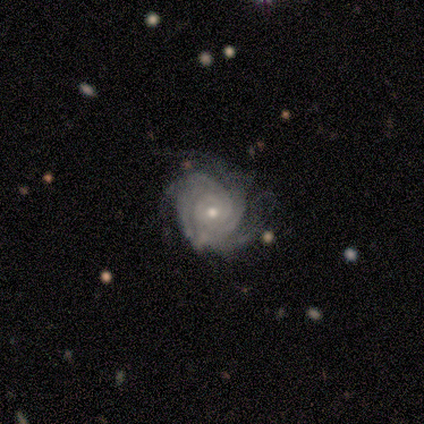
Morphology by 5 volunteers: featured or disk 100%, smooth 0%, star or artifact 0%. Down the decision tree: edge-on disk — no (100%); bar — no (100%); spiral arms — yes (100%); spiral arm count — 4 (40%, tied with can't tell); spiral winding — tight (100%); bulge size — small (60%); merging — none (60%).